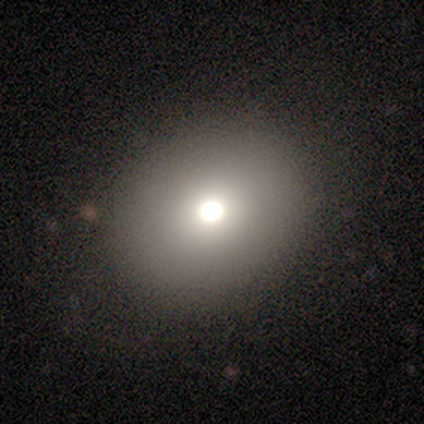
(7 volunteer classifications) Overall: smooth (86%). How rounded: round (50%, tied with in between). Merging: none (100%).